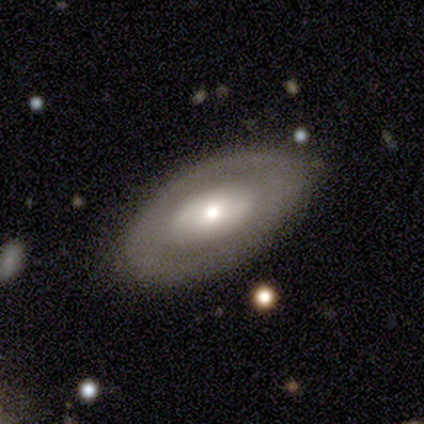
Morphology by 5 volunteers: A featured or disk galaxy (80%) with no bar (100%), no spiral arms (75%) and a small central bulge (75%).

Vote fractions:
- Smooth or featured? featured or disk: 80% / smooth: 20% / star or artifact: 0%
- Edge-on disk? no: 100% / yes: 0%
- Bar? no: 100% / strong: 0% / weak: 0%
- Spiral arms? no: 75% / yes: 25%
- Bulge size? small: 75% / moderate: 25% / dominant: 0% / large: 0% / none: 0%
- Merging? none: 100% / minor disturbance: 0% / major disturbance: 0% / merger: 0%